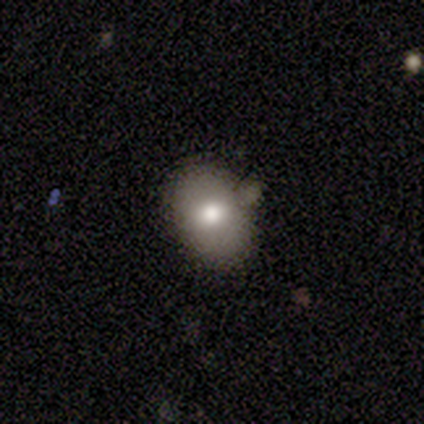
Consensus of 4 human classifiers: Overall: smooth (75%). How rounded: in between (67%; round 33%). Merging: none (50%, tied with minor disturbance).